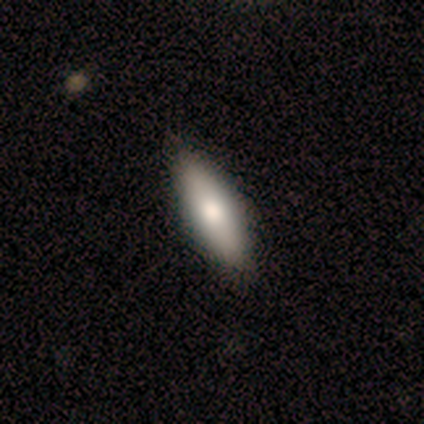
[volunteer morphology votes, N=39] Volunteers were most divided on "how rounded": in between: 50%, cigar-shaped: 47%, round: 3%. More confident: merging — none (86%); smooth or featured — smooth (77%).